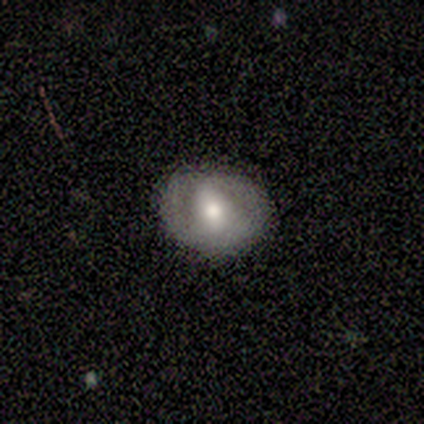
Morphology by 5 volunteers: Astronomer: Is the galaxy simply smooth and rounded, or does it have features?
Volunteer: smooth — 40%, tied with featured or disk at 40%.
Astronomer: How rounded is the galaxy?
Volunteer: round — 50%, tied with in between at 50%.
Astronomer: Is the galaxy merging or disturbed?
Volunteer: none — 75%.